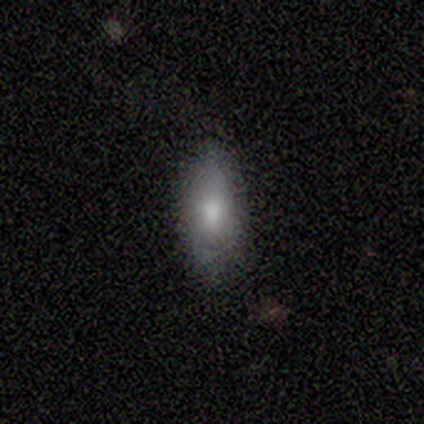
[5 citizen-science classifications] smooth 80%, star or artifact 20%, featured or disk 0%. Down the decision tree: how rounded — in between (100%); merging — none (100%).